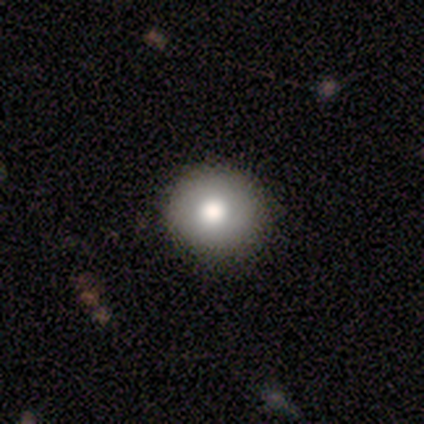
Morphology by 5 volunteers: smooth_or_featured: smooth (p=0.60) [alt: star or artifact p=0.40]
how_rounded: round (p=1.00)
merging: none (p=1.00)